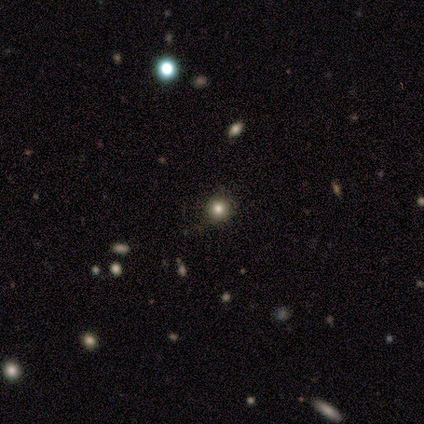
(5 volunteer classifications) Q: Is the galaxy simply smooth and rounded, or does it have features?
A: smooth — 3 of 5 (60%).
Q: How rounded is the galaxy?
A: round — 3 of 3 (100%).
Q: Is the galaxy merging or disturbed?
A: none — 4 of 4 (100%).